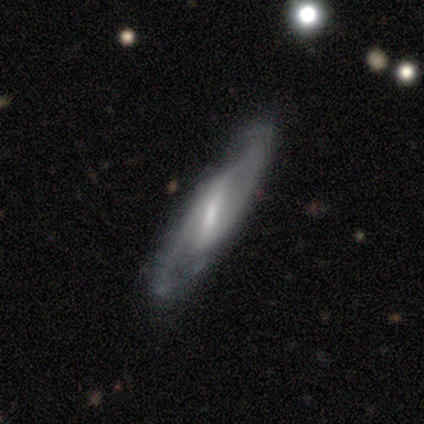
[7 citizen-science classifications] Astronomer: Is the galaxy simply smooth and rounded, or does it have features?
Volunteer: featured or disk — 100%.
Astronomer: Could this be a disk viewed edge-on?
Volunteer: no — 71%.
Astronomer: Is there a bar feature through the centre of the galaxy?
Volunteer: strong — 60% (runner-up: weak, 40%).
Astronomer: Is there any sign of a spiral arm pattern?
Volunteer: yes — 100%.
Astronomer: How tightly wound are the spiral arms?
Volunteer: medium — 60% (runner-up: tight, 40%).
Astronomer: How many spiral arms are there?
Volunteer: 2 — 100%.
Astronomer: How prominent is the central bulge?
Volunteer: small — 60% (runner-up: moderate, 40%).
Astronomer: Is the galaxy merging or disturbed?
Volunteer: none — 57% (runner-up: minor disturbance, 43%).